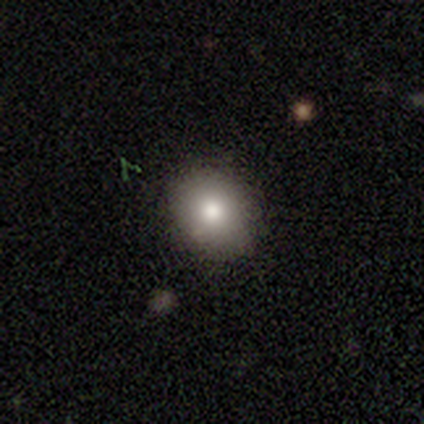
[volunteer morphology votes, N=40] Smooth or featured? smooth (82%)
How rounded? round (61%)
Merging? none (84%)